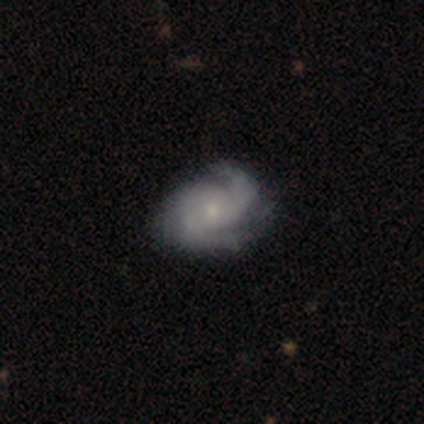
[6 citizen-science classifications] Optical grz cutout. It shows a featured or disk galaxy (67%) with no bar (75%), 2 (100%) medium (50%) spiral arms (100%) and a moderate central bulge (50%, tied with small). Merging: none (100%).